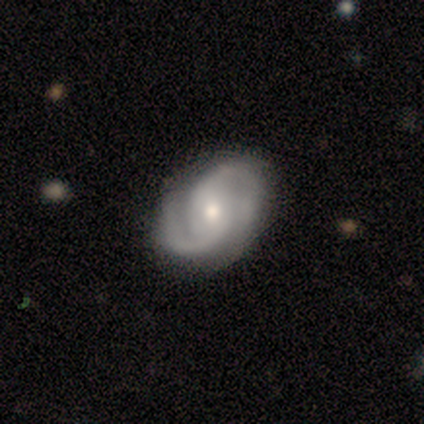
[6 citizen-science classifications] Q: Smooth or featured?
A: featured or disk (100%)
Q: Edge-on disk?
A: no (100%)
Q: Bar?
A: no (67%); runner-up: strong (17%)
Q: Spiral arms?
A: yes (83%); runner-up: no (17%)
Q: Spiral winding?
A: medium (80%); runner-up: tight (20%)
Q: Spiral arm count?
A: 2 (80%); runner-up: 3 (20%)
Q: Bulge size?
A: moderate (67%); runner-up: small (33%)
Q: Merging?
A: none (67%); runner-up: minor disturbance (17%)